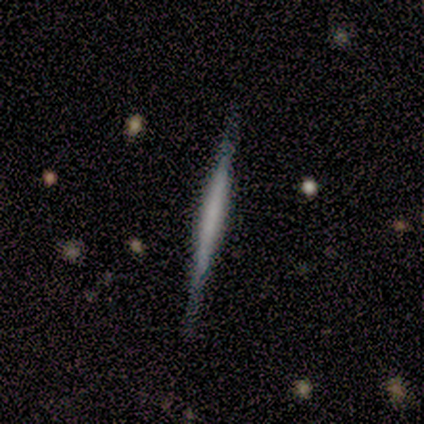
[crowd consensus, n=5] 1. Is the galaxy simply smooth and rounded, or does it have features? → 80% featured or disk, 20% smooth, 0% star or artifact.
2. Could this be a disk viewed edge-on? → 75% yes, 25% no.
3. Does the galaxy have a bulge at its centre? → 100% none, 0% boxy, 0% rounded.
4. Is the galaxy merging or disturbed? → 60% none, 40% minor disturbance, 0% major disturbance, 0% merger.